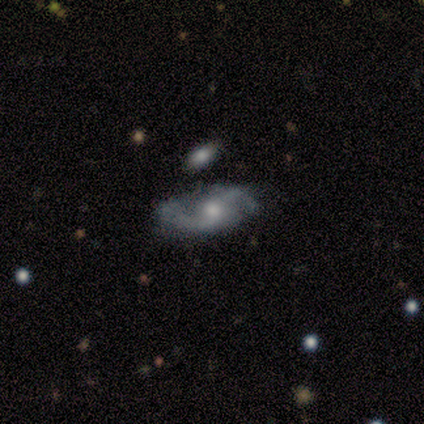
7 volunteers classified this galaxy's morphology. smooth-or-featured: featured or disk: 86% | smooth: 14% | star or artifact: 0%
  disk-edge-on: no: 100% | yes: 0%
    bar: no: 67% | strong: 17% | weak: 17%
    has-spiral-arms: yes: 100% | no: 0%
      spiral-winding: medium: 67% | loose: 33% | tight: 0%
      spiral-arm-count: 2: 100% | 1: 0% | 3: 0% | 4: 0% | more than 4: 0% | can't tell: 0%
    bulge-size: moderate: 83% | small: 17% | dominant: 0% | large: 0% | none: 0%
  merging: none: 57% | major disturbance: 29% | minor disturbance: 14% | merger: 0%